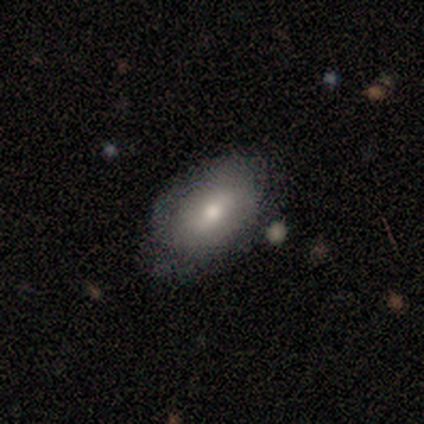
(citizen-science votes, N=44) Smooth or featured? smooth (61%)
How rounded? in between (96%)
Merging? none (65%)